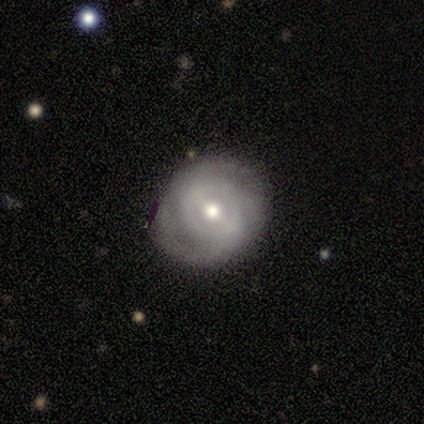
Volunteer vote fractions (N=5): Q: Smooth or featured?
A: featured or disk (60%); runner-up: smooth (40%)
Q: Edge-on disk?
A: no (100%)
Q: Bar?
A: weak (67%); runner-up: strong (33%)
Q: Spiral arms?
A: yes (100%)
Q: Spiral winding?
A: tight (67%); runner-up: medium (33%)
Q: Spiral arm count?
A: 2 (67%); runner-up: 3 (33%)
Q: Bulge size?
A: moderate (100%)
Q: Merging?
A: none (100%)